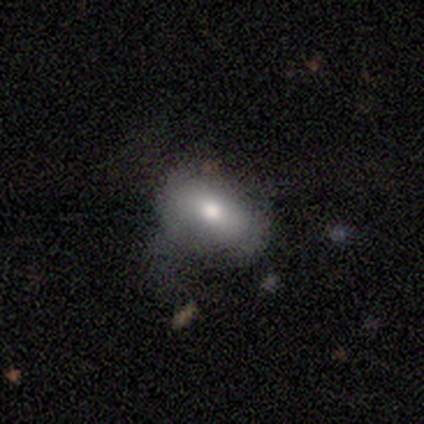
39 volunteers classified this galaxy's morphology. type=smooth (82%); roundness=in between (94%); merging=none (37%).